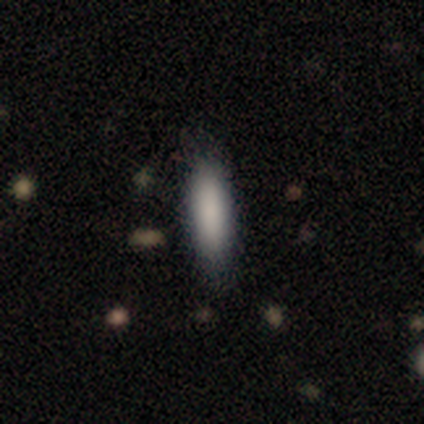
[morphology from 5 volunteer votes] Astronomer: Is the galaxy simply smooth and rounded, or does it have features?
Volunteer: smooth — 80%.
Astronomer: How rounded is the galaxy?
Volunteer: in between — 75%.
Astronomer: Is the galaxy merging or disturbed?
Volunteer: none — 80%.